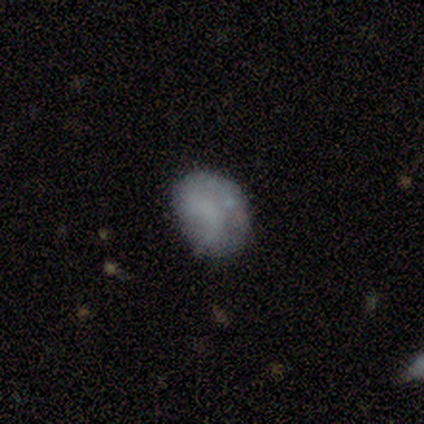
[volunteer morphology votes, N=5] smooth_or_featured: smooth (p=1.00)
how_rounded: in between (p=0.60) [alt: round p=0.40]
merging: none (p=0.80) [alt: minor disturbance p=0.20]